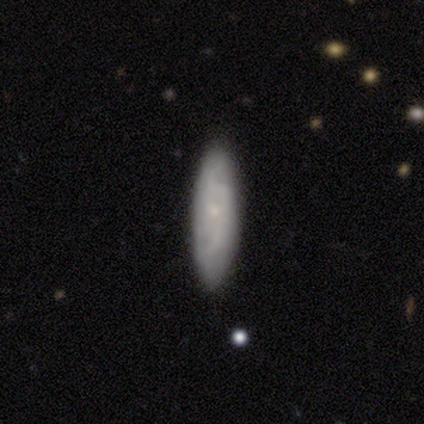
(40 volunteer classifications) This is likely a smooth galaxy (60%). How rounded: likely cigar-shaped (62%). Merging: clearly none (86%).